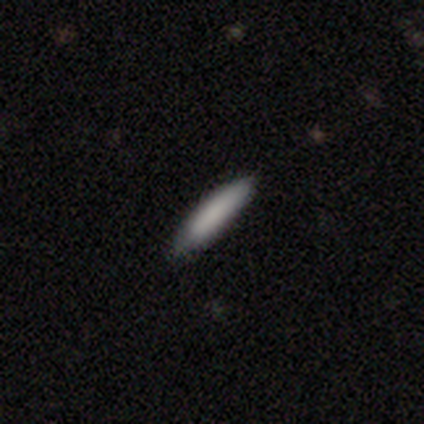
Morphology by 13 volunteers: Q: Smooth or featured?
A: smooth (85%); runner-up: featured or disk (15%)
Q: How rounded?
A: cigar-shaped (82%); runner-up: in between (18%)
Q: Merging?
A: none (92%); runner-up: merger (8%)